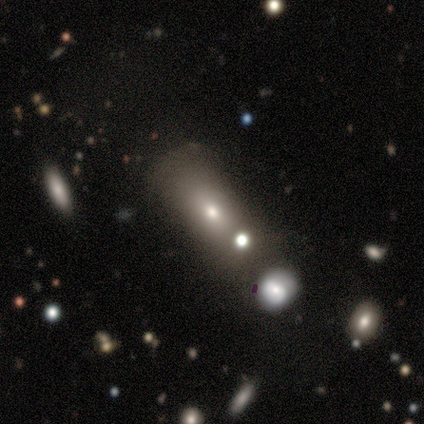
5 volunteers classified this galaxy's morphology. type=smooth (80%); roundness=cigar-shaped (75%); merging=none (50%, tied with major disturbance).